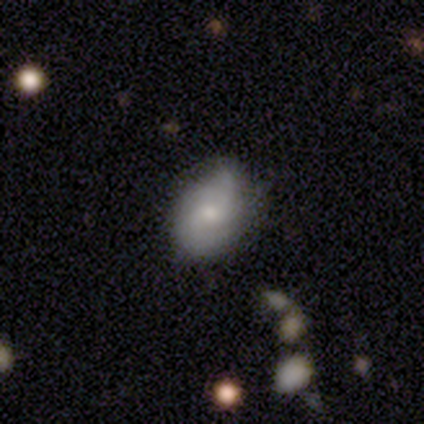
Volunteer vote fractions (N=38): Morphology: type=smooth (45%); roundness=in between (82%); merging=none (73%).